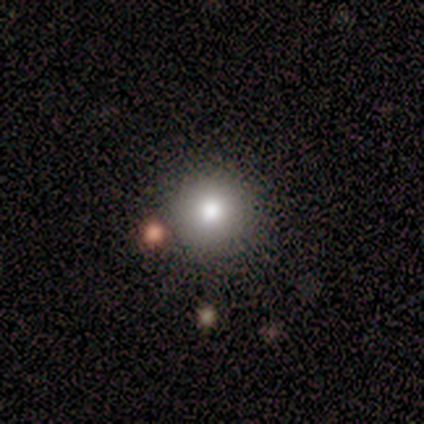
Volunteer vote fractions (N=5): A smooth galaxy with no disk features (100%) that is round (100%). Merging: none (80%).